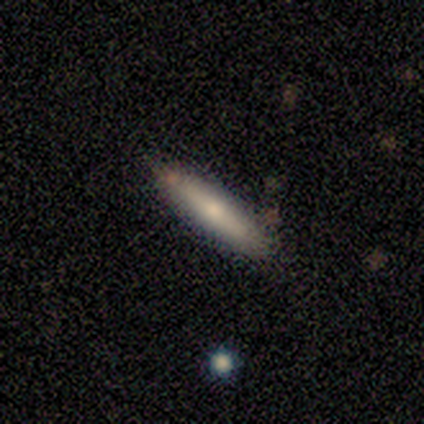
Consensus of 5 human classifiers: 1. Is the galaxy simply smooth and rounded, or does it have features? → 80% smooth, 20% featured or disk, 0% star or artifact.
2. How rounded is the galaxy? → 75% cigar-shaped, 25% in between, 0% round.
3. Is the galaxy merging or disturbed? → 60% none, 40% minor disturbance, 0% major disturbance, 0% merger.